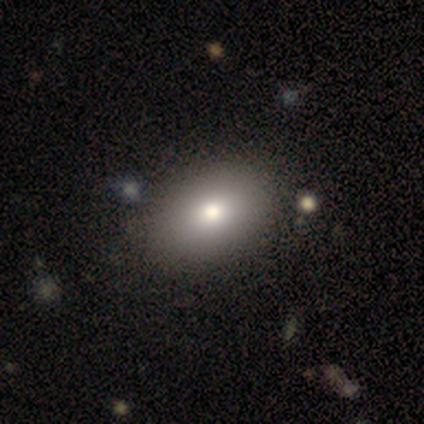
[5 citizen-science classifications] Smooth or featured? smooth (80%)
How rounded? in between (100%)
Merging? none (80%)